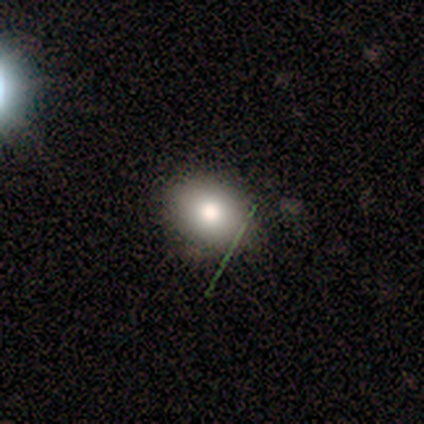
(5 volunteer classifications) Smooth or featured: smooth — 80% (featured or disk — 20%)
How rounded: round — 50% (tied with in between — 50%)
Merging: none — 100%